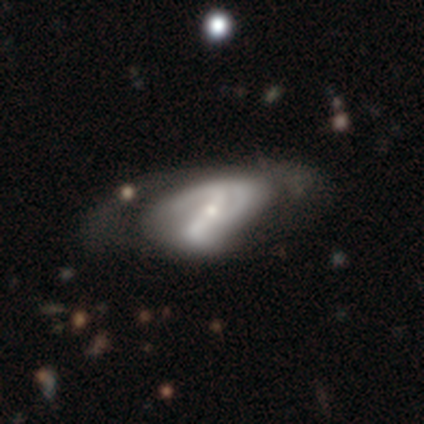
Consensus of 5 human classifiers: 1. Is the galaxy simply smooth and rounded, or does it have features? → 100% featured or disk, 0% smooth, 0% star or artifact.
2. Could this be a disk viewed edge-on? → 80% no, 20% yes.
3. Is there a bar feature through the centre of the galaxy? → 75% strong, 25% no, 0% weak.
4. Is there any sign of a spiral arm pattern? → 50% yes (tied), 50% no (tied).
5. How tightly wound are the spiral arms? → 50% medium (tied), 50% loose (tied), 0% tight.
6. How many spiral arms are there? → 50% 2 (tied), 50% 3 (tied), 0% 1, 0% 4, 0% more than 4, 0% can't tell.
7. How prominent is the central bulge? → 75% small, 25% moderate, 0% dominant, 0% large, 0% none.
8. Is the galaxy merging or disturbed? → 60% major disturbance, 40% none, 0% minor disturbance, 0% merger.